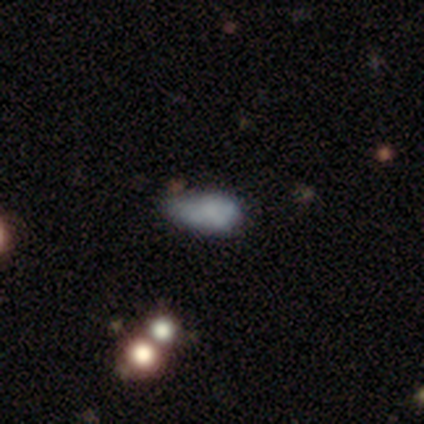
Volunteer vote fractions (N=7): smooth-or-featured: smooth: 43% (tied) | featured or disk: 43% (tied) | star or artifact: 14%
  how-rounded: in between: 67% | cigar-shaped: 33% | round: 0%
  merging: minor disturbance: 50% | major disturbance: 33% | none: 17% | merger: 0%